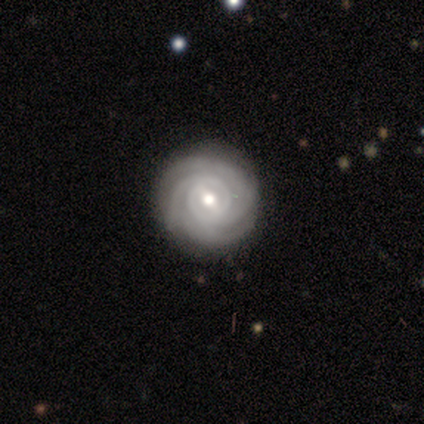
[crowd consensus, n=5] Smooth or featured: featured or disk — 100%
Edge-on disk: no — 100%
Bar: weak — 80% (strong — 20%)
Spiral arms: yes — 100%
Spiral winding: tight — 60% (medium — 40%)
Spiral arm count: 3 — 60% (2 — 20%)
Bulge size: moderate — 100%
Merging: none — 100%